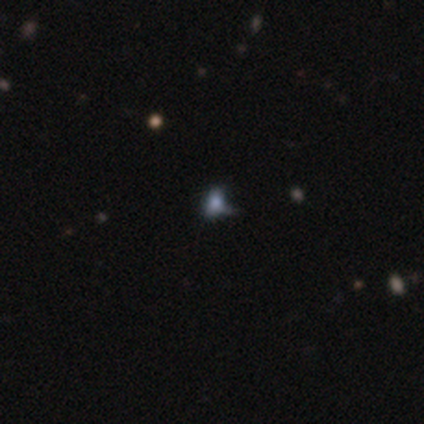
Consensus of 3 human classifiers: A smooth galaxy with no disk features (67%) that is in between round and cigar-shaped (100%).

Vote fractions:
- Smooth or featured? smooth: 67% / star or artifact: 33% / featured or disk: 0%
- How rounded? in between: 100% / round: 0% / cigar-shaped: 0%
- Merging? none: 50% (tied) / major disturbance: 50% (tied) / minor disturbance: 0% / merger: 0%